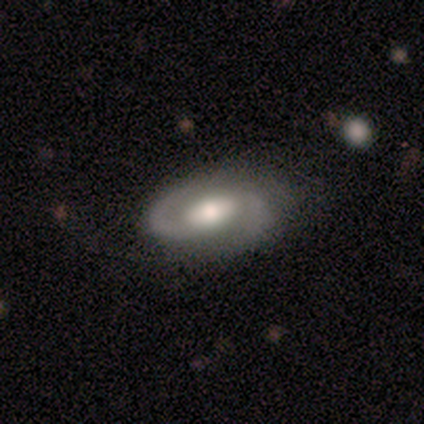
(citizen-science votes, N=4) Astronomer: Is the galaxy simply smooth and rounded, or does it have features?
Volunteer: featured or disk — 100%.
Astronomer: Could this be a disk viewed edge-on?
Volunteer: no — 100%.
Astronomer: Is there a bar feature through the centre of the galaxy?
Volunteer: no — 50%.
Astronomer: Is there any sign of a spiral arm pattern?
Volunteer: yes — 100%.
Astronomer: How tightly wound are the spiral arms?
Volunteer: medium — 75%.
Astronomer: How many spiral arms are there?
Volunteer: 2 — 100%.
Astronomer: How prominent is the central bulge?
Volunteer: moderate — 100%.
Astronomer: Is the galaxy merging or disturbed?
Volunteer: none — 75%.